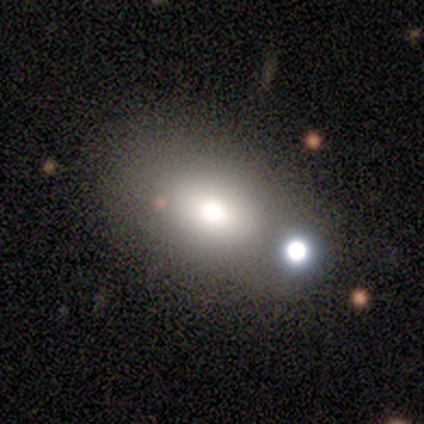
A smooth galaxy with no disk features (86%) that is in between round and cigar-shaped (83%).

Vote fractions:
- Smooth or featured? smooth: 86% / featured or disk: 14% / star or artifact: 0%
- How rounded? in between: 83% / round: 17% / cigar-shaped: 0%
- Merging? none: 57% / minor disturbance: 29% / merger: 14% / major disturbance: 0%